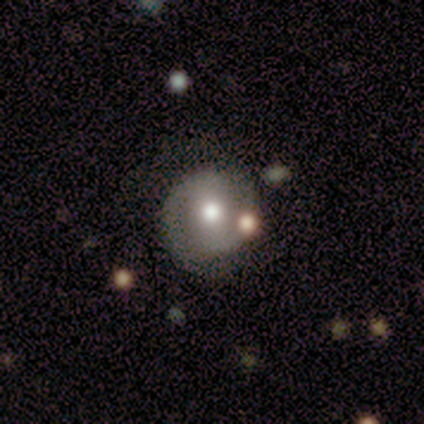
This appears to be a featured or disk galaxy (80%) with no bar (67%), 2 (100%) tight (100%) spiral arms (67%) and a moderate central bulge (67%). Merging: none (100%).